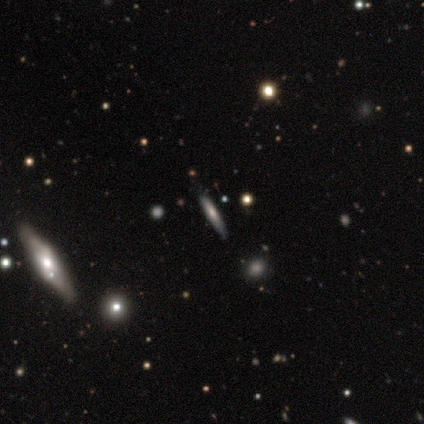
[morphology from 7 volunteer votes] This appears to be a smooth galaxy with no disk features (86%) that is cigar-shaped (100%). Merging: none (57%).